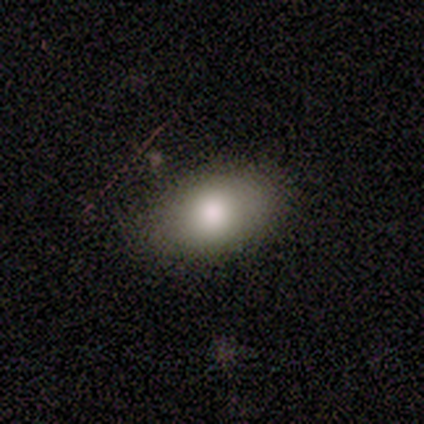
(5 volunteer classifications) Morphology: type=smooth (80%); roundness=in between (100%); merging=none (100%).